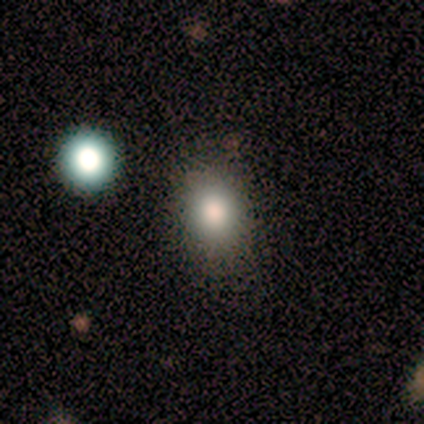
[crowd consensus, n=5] Smooth or featured?
  - smooth: 40% * (tied)
  - featured or disk: 40% * (tied)
  - star or artifact: 20%
How rounded?
  - round: 100% *
  - in between: 0%
  - cigar-shaped: 0%
Merging?
  - none: 75% *
  - major disturbance: 25%
  - minor disturbance: 0%
  - merger: 0%